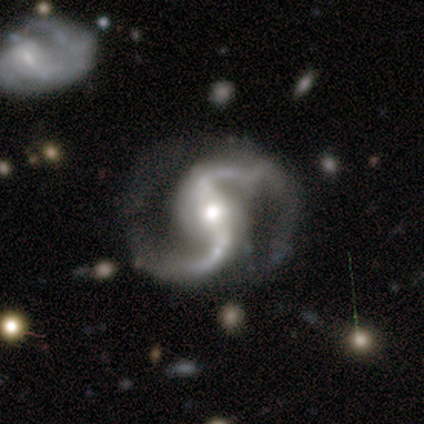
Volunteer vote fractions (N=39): Smooth or featured? 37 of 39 (95%) said featured or disk. Edge-on disk? 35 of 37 (95%) said no. Bar? 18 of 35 (51%) said strong. Spiral arms? 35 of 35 (100%) said yes. Spiral winding? 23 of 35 (66%) said loose. Spiral arm count? 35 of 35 (100%) said 2. Bulge size? 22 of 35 (63%) said moderate. Merging? 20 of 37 (54%) said none.